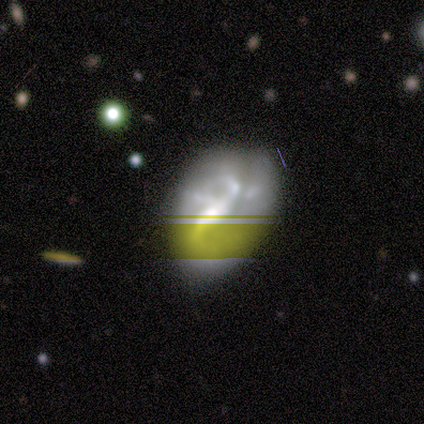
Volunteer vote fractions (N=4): Q: Smooth or featured?
A: star or artifact (75%); runner-up: featured or disk (25%)